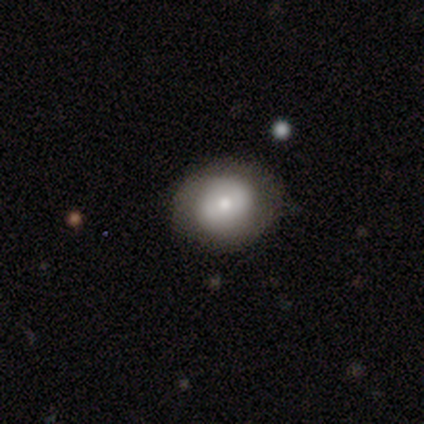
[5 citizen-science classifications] Smooth or featured?
  - smooth: 60% *
  - featured or disk: 40%
  - star or artifact: 0%
How rounded?
  - round: 67% *
  - in between: 33%
  - cigar-shaped: 0%
Merging?
  - none: 60% *
  - minor disturbance: 40%
  - major disturbance: 0%
  - merger: 0%